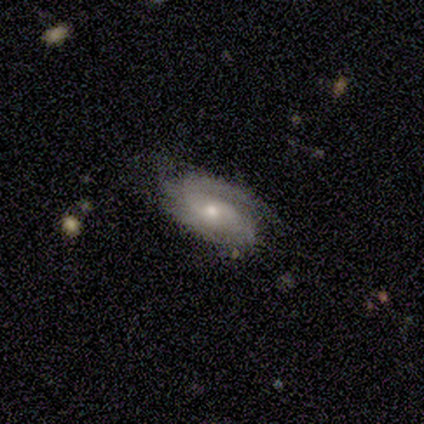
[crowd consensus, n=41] smooth-or-featured: featured or disk: 76% | smooth: 24% | star or artifact: 0%
  disk-edge-on: no: 97% | yes: 3%
    bar: no: 63% | weak: 27% | strong: 10%
    has-spiral-arms: yes: 83% | no: 17%
      spiral-winding: medium: 56% | tight: 40% | loose: 4%
      spiral-arm-count: 2: 68% | 1: 16% | 3: 12% | can't tell: 4% | 4: 0% | more than 4: 0%
    bulge-size: moderate: 67% | small: 30% | large: 3% | dominant: 0% | none: 0%
  merging: none: 61% | minor disturbance: 32% | merger: 5% | major disturbance: 2%